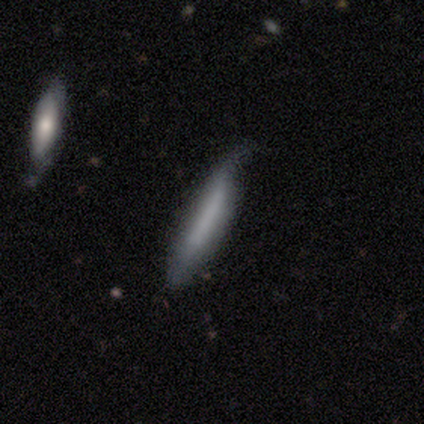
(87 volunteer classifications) Smooth or featured: smooth — 68% (featured or disk — 24%)
How rounded: cigar-shaped — 93% (in between — 5%)
Merging: none — 52% (minor disturbance — 35%)